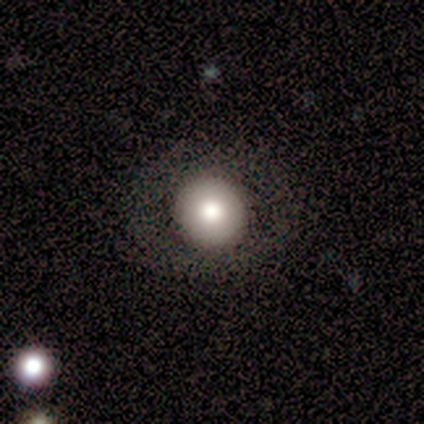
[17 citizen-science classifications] Overall: smooth (65%; featured or disk 35%). How rounded: round (91%). Merging: none (76%).